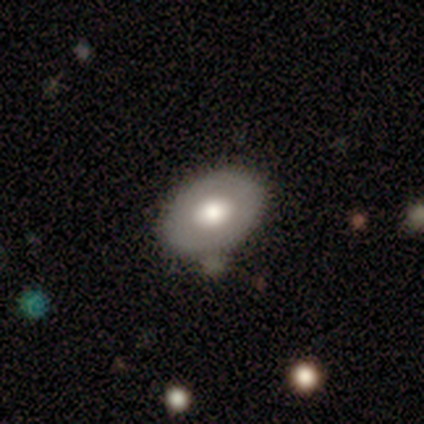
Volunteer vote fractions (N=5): Volunteers were most divided on "merging": none: 50%, minor disturbance: 25%, merger: 25%, major disturbance: 0%. More confident: how rounded — in between (67%); smooth or featured — smooth (60%).